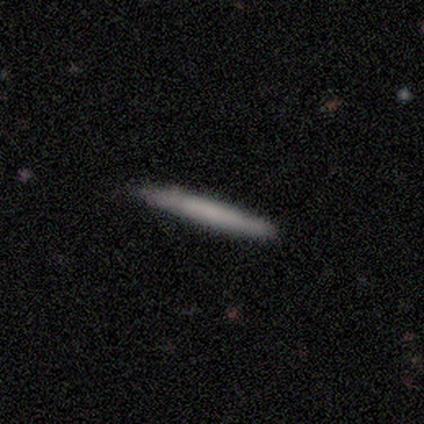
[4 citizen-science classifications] A smooth galaxy with no disk features (50%, tied with featured or disk) that is cigar-shaped (100%).

Vote fractions:
- Smooth or featured? smooth: 50% (tied) / featured or disk: 50% (tied) / star or artifact: 0%
- How rounded? cigar-shaped: 100% / round: 0% / in between: 0%
- Merging? none: 100% / minor disturbance: 0% / major disturbance: 0% / merger: 0%